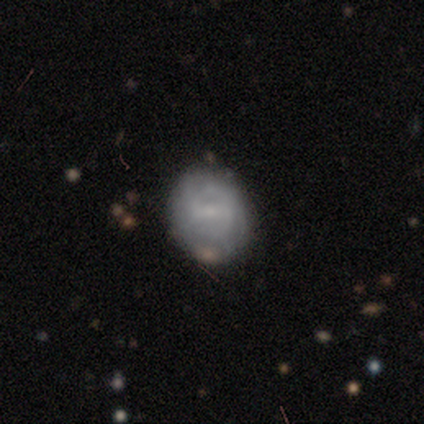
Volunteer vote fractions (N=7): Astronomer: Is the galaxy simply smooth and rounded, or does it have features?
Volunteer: smooth — 43%, tied with featured or disk at 43%.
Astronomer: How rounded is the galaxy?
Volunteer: round — 67%.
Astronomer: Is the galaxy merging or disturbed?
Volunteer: none — 100%.